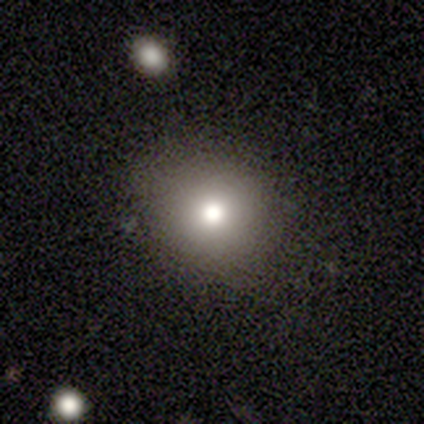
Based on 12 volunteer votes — Morphology: type=smooth (100%); roundness=round (83%); merging=none (92%).